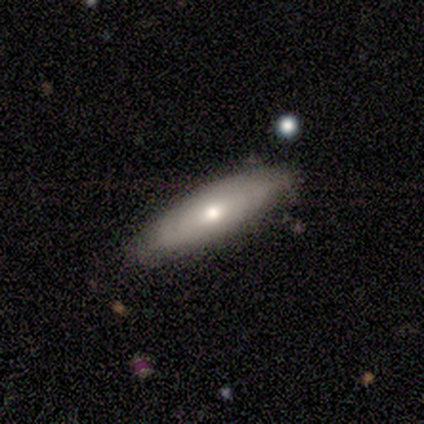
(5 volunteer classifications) smooth 100%, featured or disk 0%, star or artifact 0%. Down the decision tree: how rounded — in between (80%); merging — none (100%).